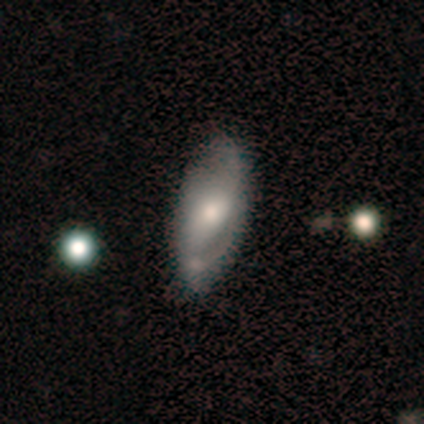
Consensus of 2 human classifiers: Smooth or featured? smooth (50%, tied with featured or disk)
How rounded? in between (100%)
Merging? minor disturbance (100%)